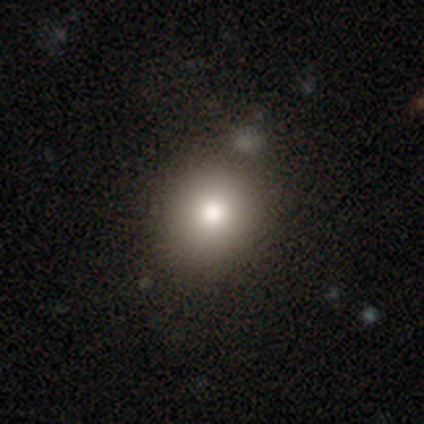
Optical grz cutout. It shows a smooth galaxy with no disk features (67%) that is round (80%). Merging: none (70%).